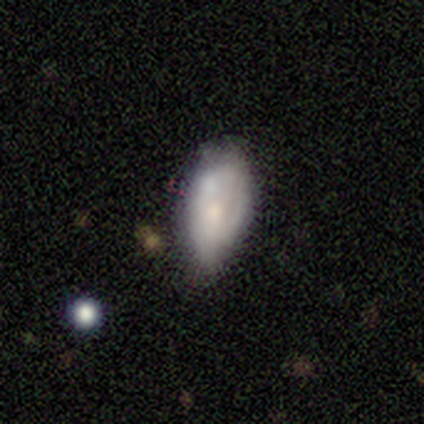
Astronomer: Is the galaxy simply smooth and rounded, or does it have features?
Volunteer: featured or disk — 80%.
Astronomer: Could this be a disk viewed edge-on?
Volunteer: no — 100%.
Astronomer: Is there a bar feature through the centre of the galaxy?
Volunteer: weak — 50%, tied with no at 50%.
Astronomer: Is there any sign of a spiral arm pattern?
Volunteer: no — 100%.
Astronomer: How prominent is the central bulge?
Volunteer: moderate — 50%.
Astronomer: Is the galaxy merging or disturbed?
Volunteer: none — 40%, tied with minor disturbance at 40%.